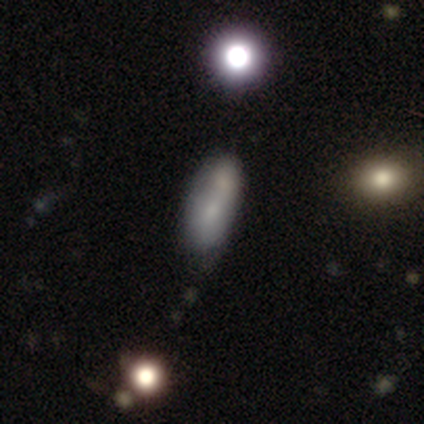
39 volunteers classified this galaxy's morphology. Q: Smooth or featured?
A: smooth (77%); runner-up: featured or disk (13%)
Q: How rounded?
A: in between (80%); runner-up: cigar-shaped (13%)
Q: Merging?
A: none (46%); runner-up: merger (29%)